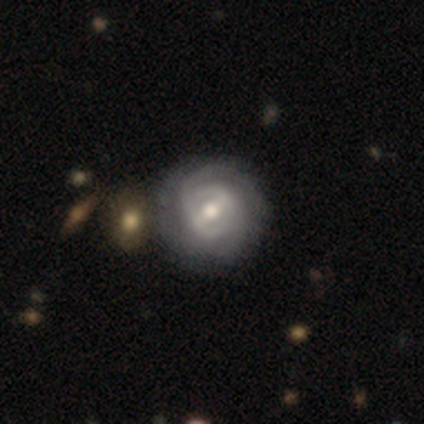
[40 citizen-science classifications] Overall: featured or disk (90%). Edge-on disk: no (100%). Bar: strong (39%; weak 31%). Spiral arms: yes (83%). Spiral arm count: 2 (50%; can't tell 30%). Spiral winding: tight (80%). Bulge size: moderate (69%). Merging: none (63%).